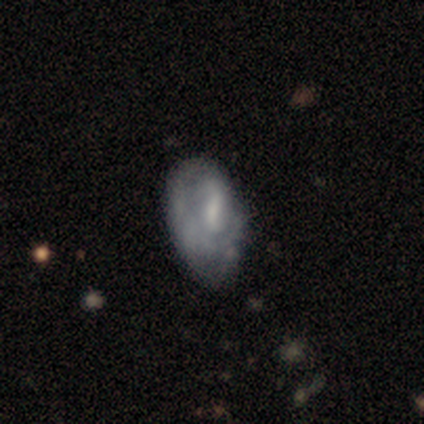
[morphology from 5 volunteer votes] smooth_or_featured: featured or disk (p=0.60) [alt: smooth p=0.40]
disk_edge_on: no (p=1.00)
bar: no (p=0.67) [alt: weak p=0.33]
has_spiral_arms: no (p=0.67) [alt: yes p=0.33]
bulge_size: small (p=0.67) [alt: none p=0.33]
merging: none (p=0.40) [tied with: minor disturbance p=0.40]